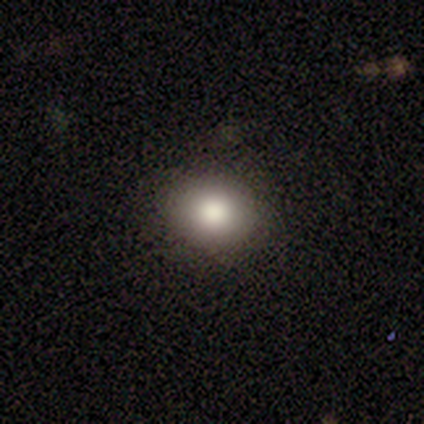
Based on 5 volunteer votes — Smooth or featured? smooth (60%)
How rounded? round (67%)
Merging? none (67%)